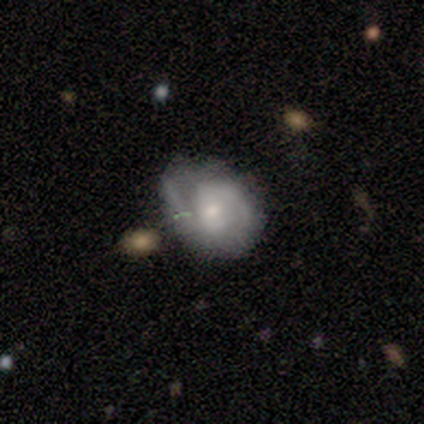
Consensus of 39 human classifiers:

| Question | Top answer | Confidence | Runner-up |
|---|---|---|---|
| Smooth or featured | featured or disk | 59% | smooth (33%) |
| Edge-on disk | no | 96% | yes (4%) |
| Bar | no | 50% | weak (41%) |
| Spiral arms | yes | 95% | no (5%) |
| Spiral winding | medium | 67% | tight (19%) |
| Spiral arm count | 2 | 86% | 1 (10%) |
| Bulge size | small | 45% | moderate (41%) |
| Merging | none | 58% | minor disturbance (17%) |